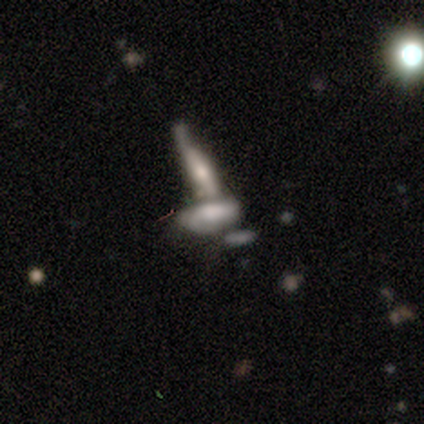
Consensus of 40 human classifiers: Smooth or featured?
  - featured or disk: 52% *
  - smooth: 38%
  - star or artifact: 10%
Edge-on disk?
  - no: 62% *
  - yes: 38%
Bar?
  - no: 62% *
  - strong: 23%
  - weak: 15%
Spiral arms?
  - no: 62% *
  - yes: 38%
Bulge size?
  - none: 38% *
  - moderate: 31%
  - large: 15%
  - dominant: 8%
  - small: 8%
Merging?
  - merger: 61% *
  - none: 25%
  - minor disturbance: 8%
  - major disturbance: 6%